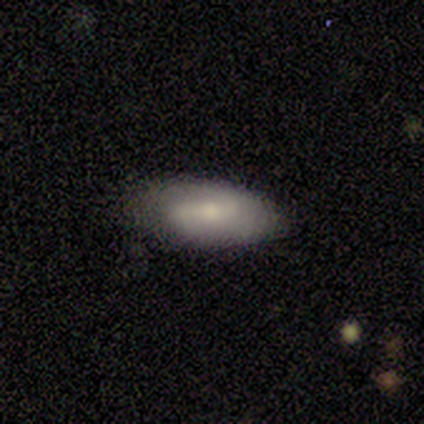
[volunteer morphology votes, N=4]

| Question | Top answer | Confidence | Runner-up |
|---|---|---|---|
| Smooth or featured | featured or disk | 75% | smooth (25%) |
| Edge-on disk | no | 100% | — |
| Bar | no | 67% | strong (33%) |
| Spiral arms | yes | 100% | — |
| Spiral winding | tight | 33% | tied: medium (33%), loose (33%) |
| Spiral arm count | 2 | 100% | — |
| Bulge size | moderate | 67% | small (33%) |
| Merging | none | 75% | minor disturbance (25%) |